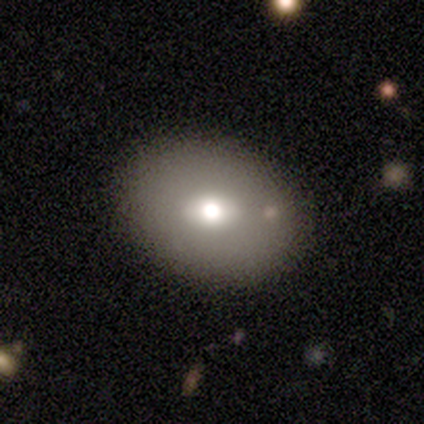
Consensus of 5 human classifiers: Smooth or featured?
  - smooth: 80% *
  - featured or disk: 20%
  - star or artifact: 0%
How rounded?
  - in between: 75% *
  - round: 25%
  - cigar-shaped: 0%
Merging?
  - none: 80% *
  - minor disturbance: 20%
  - major disturbance: 0%
  - merger: 0%